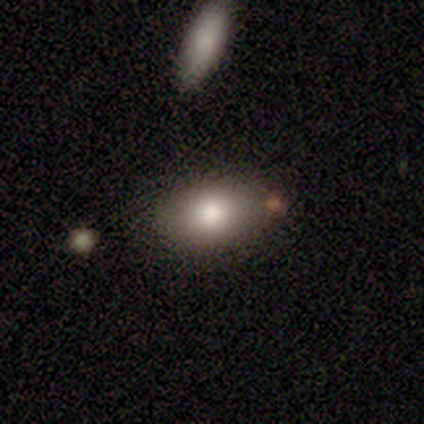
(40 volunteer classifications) A smooth galaxy with no disk features (80%) that is in between round and cigar-shaped (88%).

Vote fractions:
- Smooth or featured? smooth: 80% / featured or disk: 15% / star or artifact: 5%
- How rounded? in between: 88% / round: 12% / cigar-shaped: 0%
- Merging? none: 74% / minor disturbance: 18% / merger: 5% / major disturbance: 3%